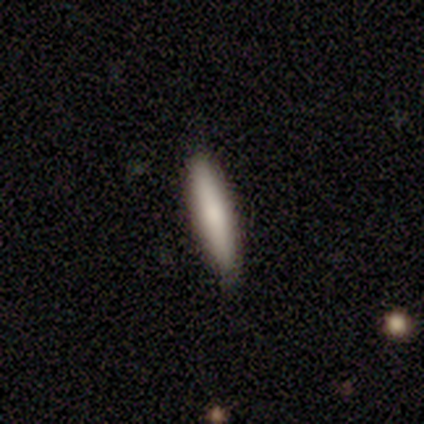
Volunteers were most divided on "how rounded": cigar-shaped: 75%, in between: 25%, round: 0%. More confident: smooth or featured — smooth (80%); merging — none (80%).